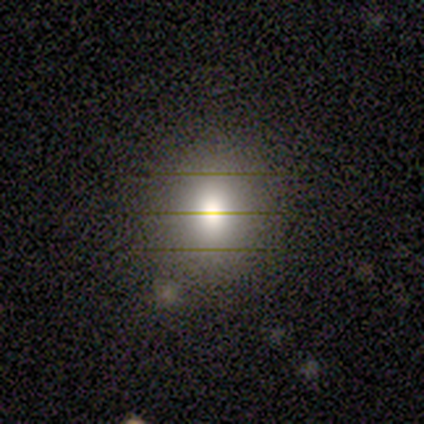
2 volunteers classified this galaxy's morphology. This appears to be a smooth galaxy with no disk features (50%, tied with star or artifact) that is in between round and cigar-shaped (100%). Merging: minor disturbance (100%).